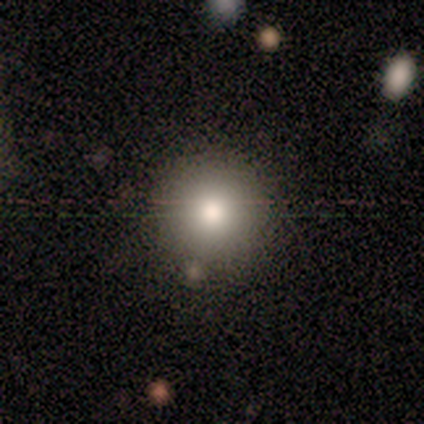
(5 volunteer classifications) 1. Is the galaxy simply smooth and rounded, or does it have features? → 60% smooth, 20% featured or disk, 20% star or artifact.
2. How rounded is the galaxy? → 100% round, 0% in between, 0% cigar-shaped.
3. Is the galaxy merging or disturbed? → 100% none, 0% minor disturbance, 0% major disturbance, 0% merger.